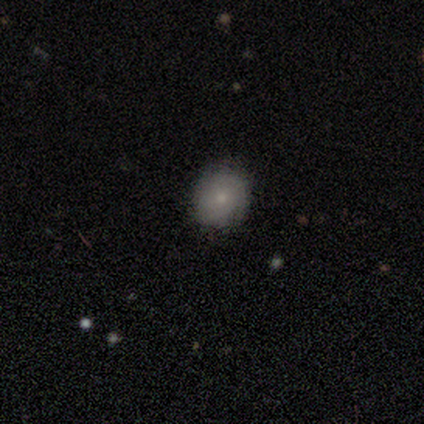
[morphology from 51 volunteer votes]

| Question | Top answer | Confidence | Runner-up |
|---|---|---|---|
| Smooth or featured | smooth | 63% | featured or disk (27%) |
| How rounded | round | 69% | in between (31%) |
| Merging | none | 85% | minor disturbance (9%) |